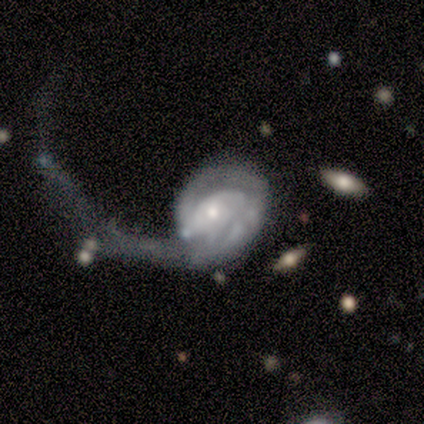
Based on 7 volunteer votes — This is clearly a featured or disk galaxy (86%). It is clearly not viewed edge-on (100%). Bar: clearly no (83%). Spiral arm pattern: clearly yes (83%). Spiral arm count: clearly 2 (80%). Spiral winding: likely tight (60%). Central bulge: possibly small (50%). Merging: clearly major disturbance (86%).